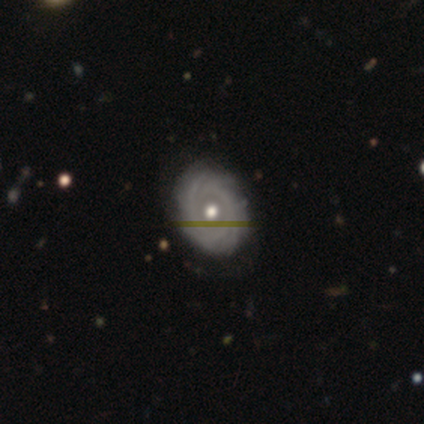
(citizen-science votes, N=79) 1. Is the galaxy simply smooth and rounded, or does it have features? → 85% featured or disk, 14% smooth, 1% star or artifact.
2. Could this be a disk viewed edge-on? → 97% no, 3% yes.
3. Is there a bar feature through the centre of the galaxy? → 85% no, 9% weak, 6% strong.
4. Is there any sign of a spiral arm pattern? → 94% yes, 6% no.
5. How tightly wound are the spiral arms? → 87% tight, 11% medium, 2% loose.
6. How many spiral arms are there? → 49% can't tell, 26% more than 4, 15% 4, 5% 2, 5% 3, 0% 1.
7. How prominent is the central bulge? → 85% moderate, 9% small, 6% large, 0% dominant, 0% none.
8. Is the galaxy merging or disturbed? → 46% none, 3% minor disturbance, 3% merger, 1% major disturbance.